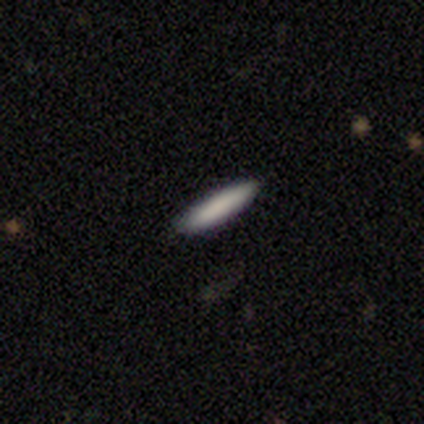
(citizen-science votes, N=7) Overall: smooth (100%). How rounded: cigar-shaped (100%). Merging: none (100%).